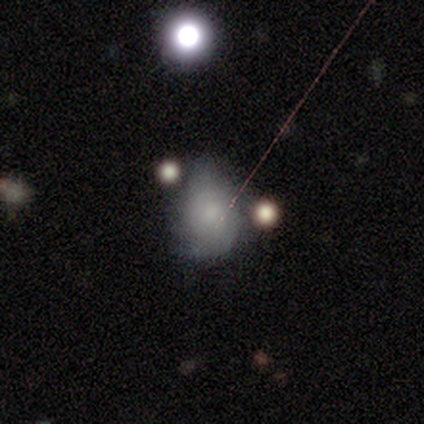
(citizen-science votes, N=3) Overall: star or artifact (67%; smooth 33%).